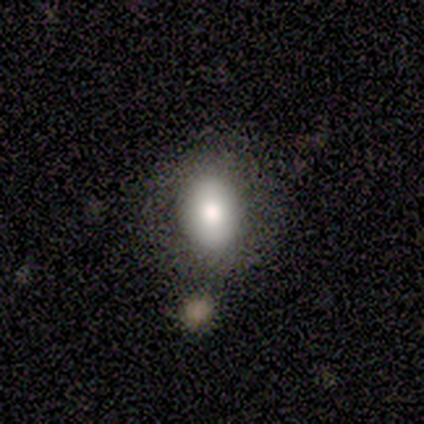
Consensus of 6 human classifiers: smooth 83%, featured or disk 17%, star or artifact 0%. Down the decision tree: how rounded — in between (80%); merging — none (67%).